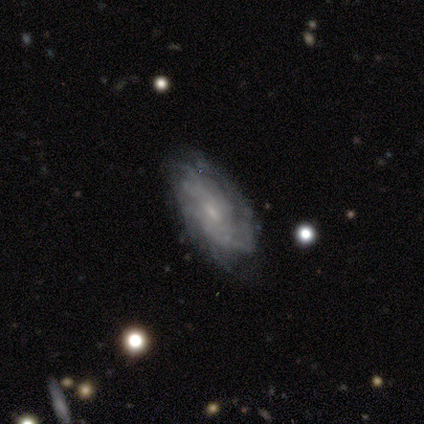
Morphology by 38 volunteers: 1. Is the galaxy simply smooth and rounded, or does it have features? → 82% featured or disk, 18% smooth, 0% star or artifact.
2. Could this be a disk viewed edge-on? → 94% no, 6% yes.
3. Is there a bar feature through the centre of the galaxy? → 48% weak, 41% no, 10% strong.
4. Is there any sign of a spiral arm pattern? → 90% yes, 10% no.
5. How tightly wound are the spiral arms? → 50% tight, 35% medium, 15% loose.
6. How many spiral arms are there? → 54% can't tell, 23% 2, 8% 3, 8% 4, 8% more than 4, 0% 1.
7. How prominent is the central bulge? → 72% small, 24% moderate, 3% none, 0% dominant, 0% large.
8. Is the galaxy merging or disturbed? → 63% none, 18% minor disturbance, 18% major disturbance, 0% merger.